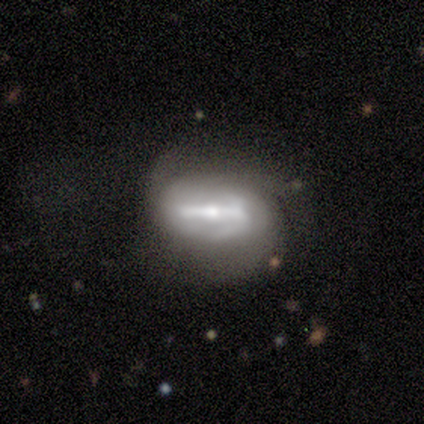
Smooth or featured: featured or disk — 60% (smooth — 40%)
Edge-on disk: no — 100%
Bar: strong — 100%
Spiral arms: yes — 67% (no — 33%)
Spiral winding: medium — 100%
Spiral arm count: 2 — 50% (tied with 3 — 50%)
Bulge size: small — 67% (moderate — 33%)
Merging: none — 60% (minor disturbance — 40%)